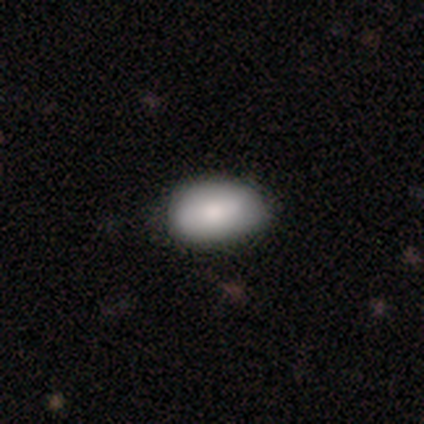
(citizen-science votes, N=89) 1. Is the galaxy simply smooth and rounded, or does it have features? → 82% smooth, 10% featured or disk, 8% star or artifact.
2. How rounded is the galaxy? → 93% in between, 5% round, 1% cigar-shaped.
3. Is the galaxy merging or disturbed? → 70% none, 27% minor disturbance, 4% major disturbance, 0% merger.